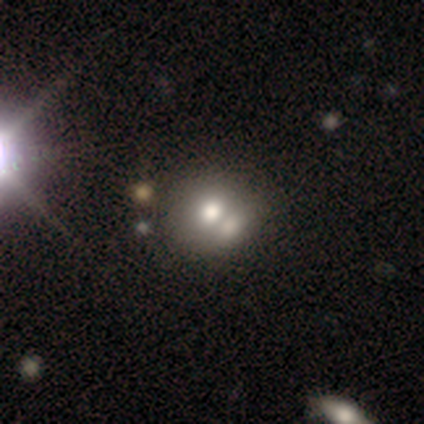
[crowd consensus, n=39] A smooth galaxy with no disk features (69%) that is round (74%). Merging: merger (49%).